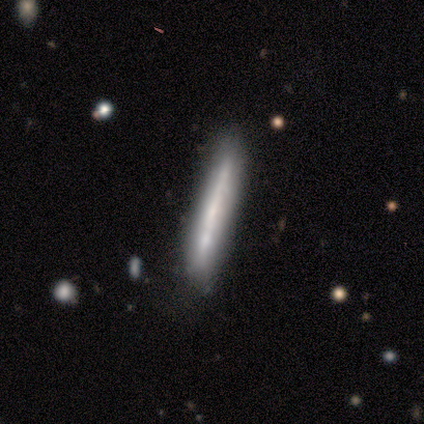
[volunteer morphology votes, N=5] A featured or disk galaxy (60%) viewed edge-on (67%) with no central bulge (100%).

Vote fractions:
- Smooth or featured? featured or disk: 60% / smooth: 40% / star or artifact: 0%
- Edge-on disk? yes: 67% / no: 33%
- Edge-on bulge? none: 100% / boxy: 0% / rounded: 0%
- Merging? none: 60% / minor disturbance: 40% / major disturbance: 0% / merger: 0%